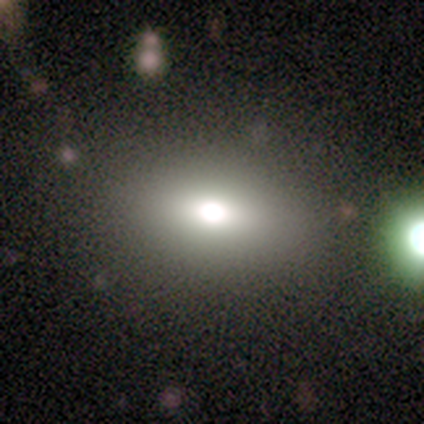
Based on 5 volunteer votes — This is likely a smooth galaxy (60%). How rounded: likely in between (67%). Merging: possibly none (50%).